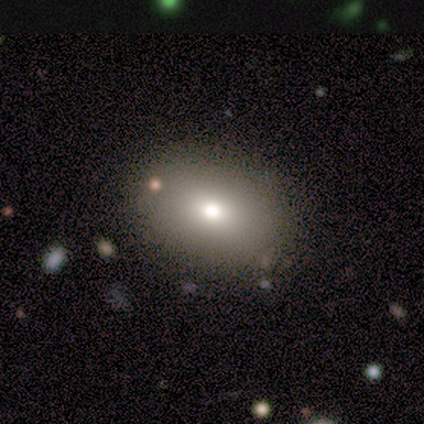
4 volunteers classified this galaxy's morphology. Volunteers were most divided on "smooth or featured": smooth: 75%, star or artifact: 25%, featured or disk: 0%. More confident: how rounded — in between (100%); merging — none (100%).